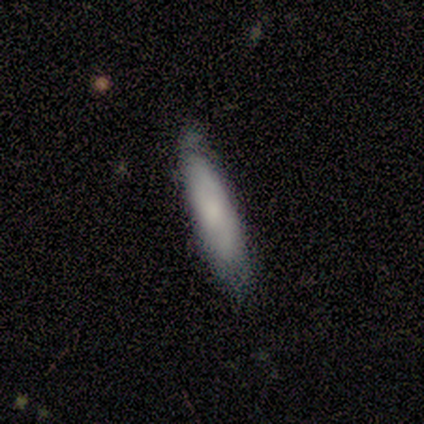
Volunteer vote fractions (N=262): Smooth or featured? smooth (82%)
How rounded? cigar-shaped (86%)
Merging? none (66%)